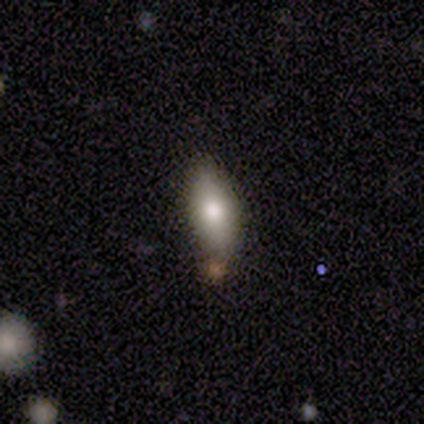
Smooth or featured: smooth — 100%
How rounded: in between — 100%
Merging: none — 100%